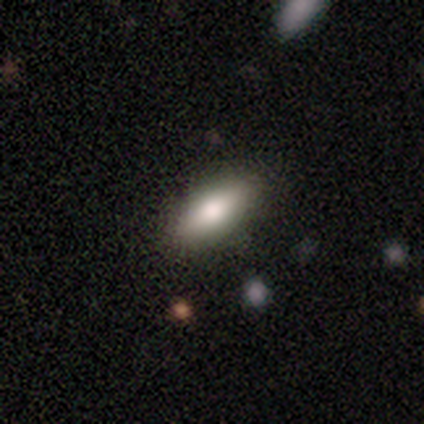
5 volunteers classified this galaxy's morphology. Volunteers were most divided on "how rounded": in between: 67%, cigar-shaped: 33%, round: 0%. More confident: merging — none (75%); smooth or featured — smooth (60%).